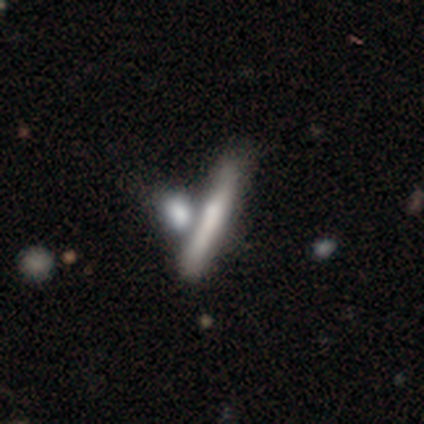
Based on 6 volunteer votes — Smooth or featured? featured or disk (67%)
Edge-on disk? yes (100%)
Edge-on bulge? none (50%, tied with rounded)
Merging? none (50%)